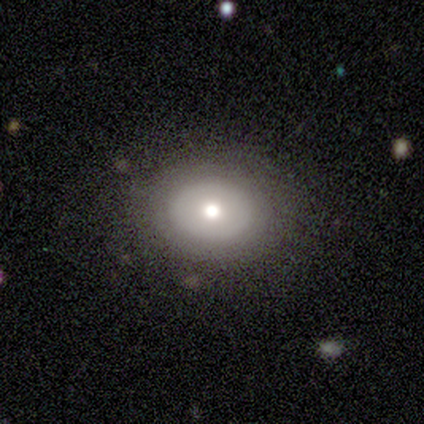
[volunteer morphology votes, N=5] A smooth galaxy with no disk features (100%) that is round (100%). Merging: none (80%).